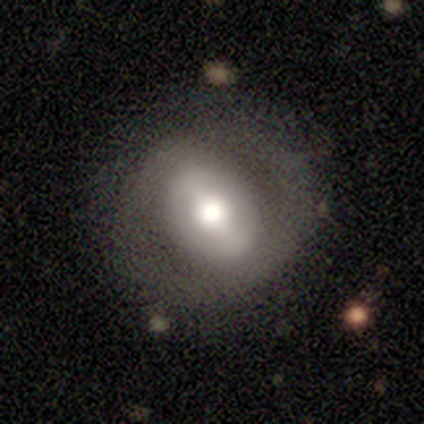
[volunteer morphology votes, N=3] Smooth or featured? featured or disk (67%)
Edge-on disk? no (100%)
Bar? strong (50%, tied with weak)
Spiral arms? yes (100%)
Spiral winding? tight (100%)
Spiral arm count? 2 (50%, tied with 4)
Bulge size? large (100%)
Merging? none (67%)